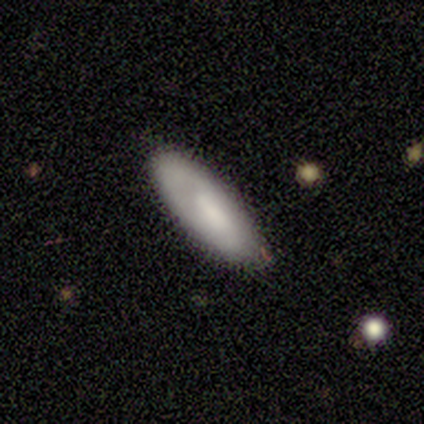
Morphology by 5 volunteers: Overall: smooth (80%). How rounded: in between (75%). Merging: none (80%).